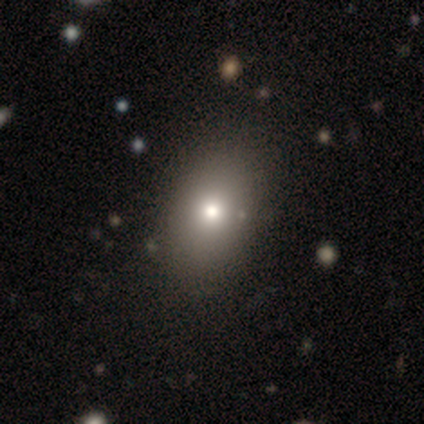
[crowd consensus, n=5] A smooth galaxy with no disk features (60%) that is in between round and cigar-shaped (100%).

Vote fractions:
- Smooth or featured? smooth: 60% / featured or disk: 20% / star or artifact: 20%
- How rounded? in between: 100% / round: 0% / cigar-shaped: 0%
- Merging? none: 100% / minor disturbance: 0% / major disturbance: 0% / merger: 0%